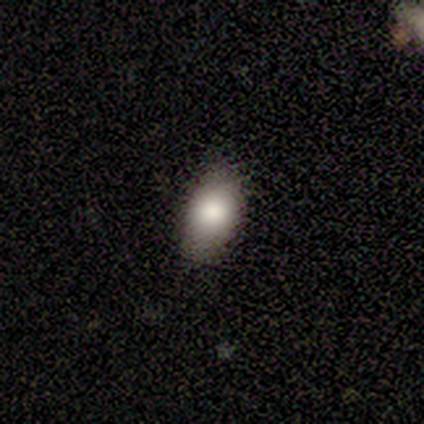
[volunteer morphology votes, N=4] Q: Smooth or featured?
A: smooth (100%)
Q: How rounded?
A: in between (75%); runner-up: round (25%)
Q: Merging?
A: none (100%)